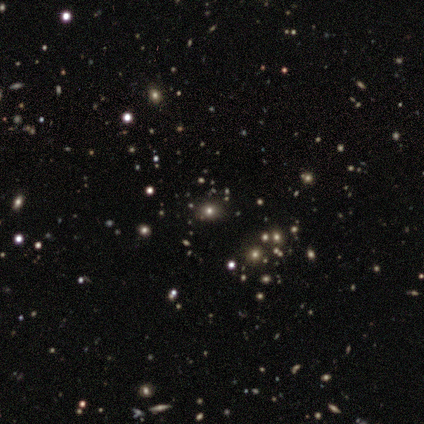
Q: Smooth or featured?
A: smooth (53%); runner-up: star or artifact (40%)
Q: How rounded?
A: round (75%); runner-up: in between (25%)
Q: Merging?
A: none (100%)